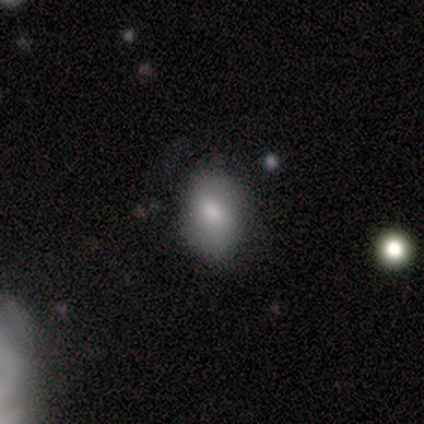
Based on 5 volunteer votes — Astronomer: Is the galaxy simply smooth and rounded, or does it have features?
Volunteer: smooth — 100%.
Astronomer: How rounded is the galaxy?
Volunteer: in between — 100%.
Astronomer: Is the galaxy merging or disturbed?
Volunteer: none — 100%.